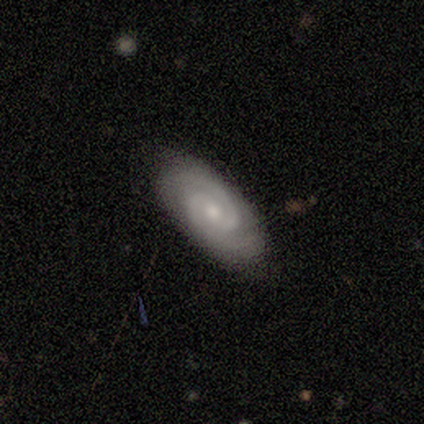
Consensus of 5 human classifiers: Q: Smooth or featured?
A: featured or disk (80%); runner-up: smooth (20%)
Q: Edge-on disk?
A: no (100%)
Q: Bar?
A: no (75%); runner-up: weak (25%)
Q: Spiral arms?
A: yes (100%)
Q: Spiral winding?
A: tight (75%); runner-up: medium (25%)
Q: Spiral arm count?
A: 2 (100%)
Q: Bulge size?
A: moderate (50%); tied with: small (50%)
Q: Merging?
A: none (80%); runner-up: minor disturbance (20%)